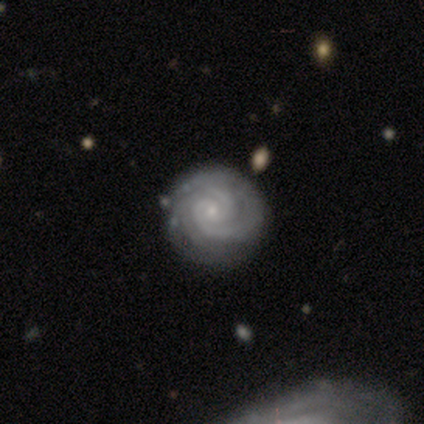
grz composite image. It shows a featured or disk galaxy (96%) with no bar (76%), 2 (39%) tight (90%) spiral arms (100%) and a small central bulge (87%). Merging: none (82%).